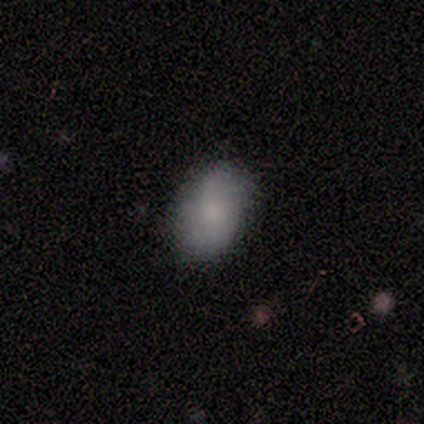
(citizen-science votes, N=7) Smooth or featured: smooth — 100%
How rounded: in between — 100%
Merging: none — 86% (major disturbance — 14%)